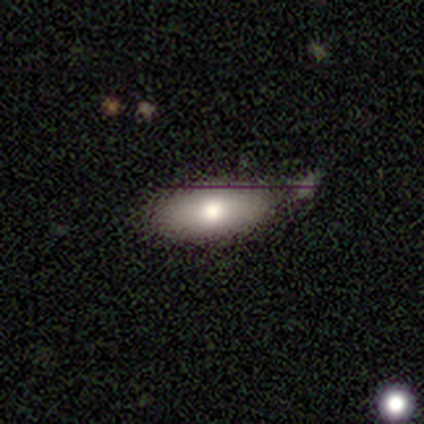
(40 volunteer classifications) Morphology: type=smooth (70%); roundness=in between (93%); merging=none (47%).